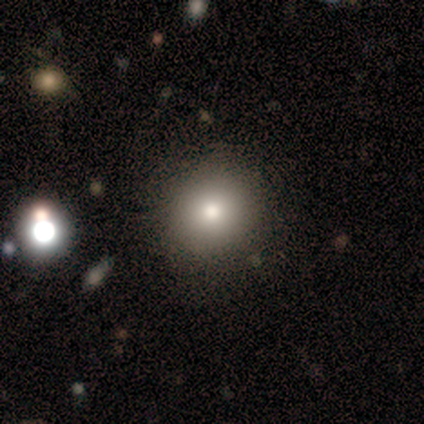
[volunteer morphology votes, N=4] smooth-or-featured: smooth: 75% | star or artifact: 25% | featured or disk: 0%
  how-rounded: round: 100% | in between: 0% | cigar-shaped: 0%
  merging: none: 100% | minor disturbance: 0% | major disturbance: 0% | merger: 0%